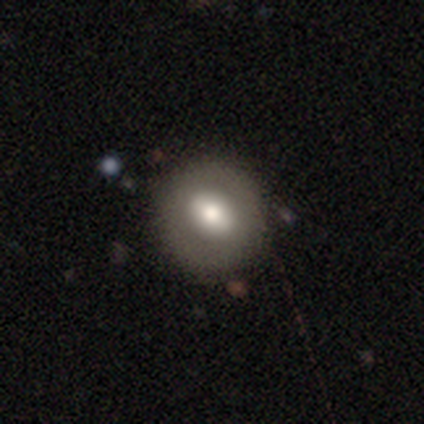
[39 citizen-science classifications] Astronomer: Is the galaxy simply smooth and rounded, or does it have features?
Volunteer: smooth — 59% (runner-up: featured or disk, 38%).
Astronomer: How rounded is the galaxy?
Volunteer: round — 91%.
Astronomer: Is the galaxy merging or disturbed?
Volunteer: none — 55%.